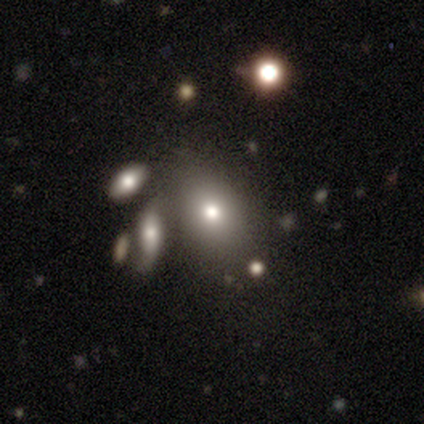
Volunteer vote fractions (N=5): A star or artifact, not a galaxy (60%).